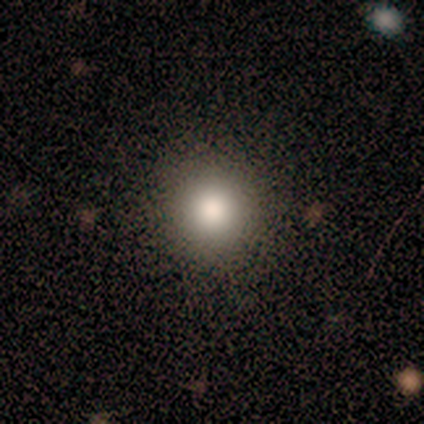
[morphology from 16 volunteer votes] Q: Smooth or featured?
A: smooth (88%); runner-up: featured or disk (6%)
Q: How rounded?
A: round (93%); runner-up: in between (7%)
Q: Merging?
A: none (87%); runner-up: minor disturbance (7%)